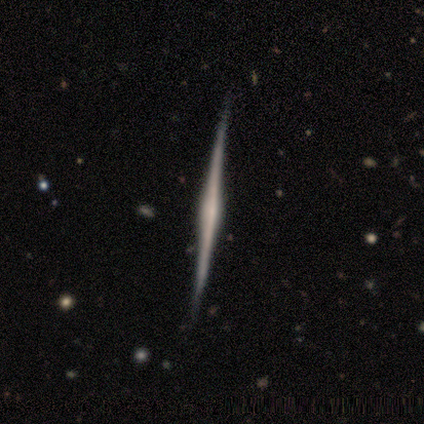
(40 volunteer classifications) Volunteers were most divided on "edge-on bulge": rounded: 53%, none: 29%, boxy: 18%. More confident: edge-on disk — yes (100%); smooth or featured — featured or disk (85%); merging — none (62%).